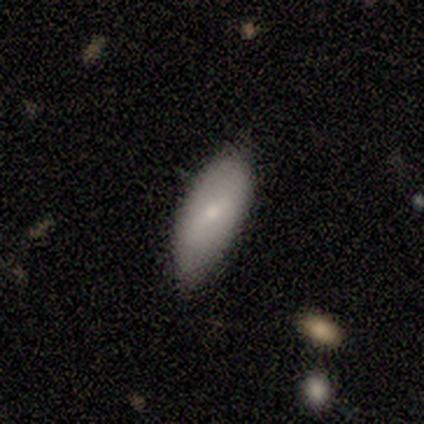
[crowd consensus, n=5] Smooth or featured? smooth (100%)
How rounded? in between (80%)
Merging? none (40%, tied with merger)